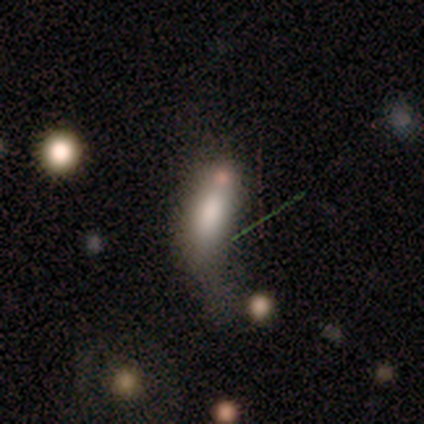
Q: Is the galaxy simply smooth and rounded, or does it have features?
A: smooth — 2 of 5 (40%, tied with featured or disk).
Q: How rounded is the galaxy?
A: in between — 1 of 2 (50%, tied with cigar-shaped).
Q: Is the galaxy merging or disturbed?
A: major disturbance — 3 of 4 (75%).